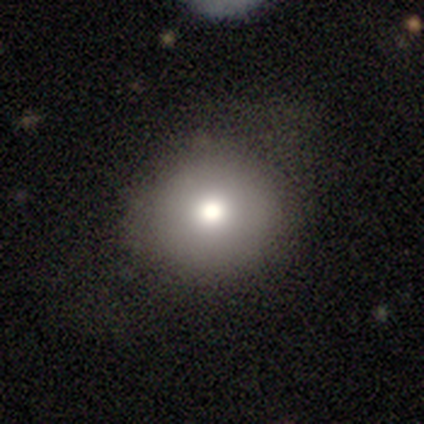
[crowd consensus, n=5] Smooth or featured?
  - smooth: 60% *
  - featured or disk: 20%
  - star or artifact: 20%
How rounded?
  - round: 100% *
  - in between: 0%
  - cigar-shaped: 0%
Merging?
  - none: 50% * (tied)
  - minor disturbance: 50% * (tied)
  - major disturbance: 0%
  - merger: 0%